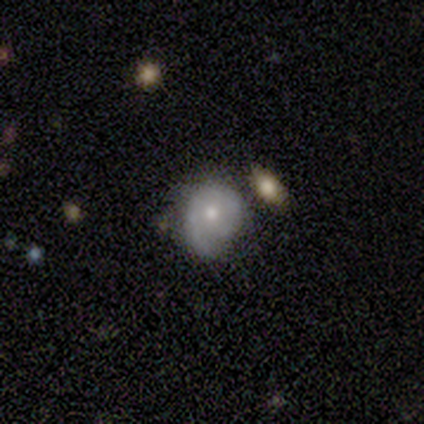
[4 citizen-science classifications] smooth_or_featured: featured or disk (p=1.00)
disk_edge_on: no (p=1.00)
bar: no (p=0.75) [alt: weak p=0.25]
has_spiral_arms: yes (p=1.00)
spiral_winding: medium (p=0.50) [alt: tight p=0.25]
spiral_arm_count: 1 (p=0.50) [tied with: can't tell p=0.50]
bulge_size: moderate (p=0.75) [alt: small p=0.25]
merging: merger (p=0.50) [alt: none p=0.25]